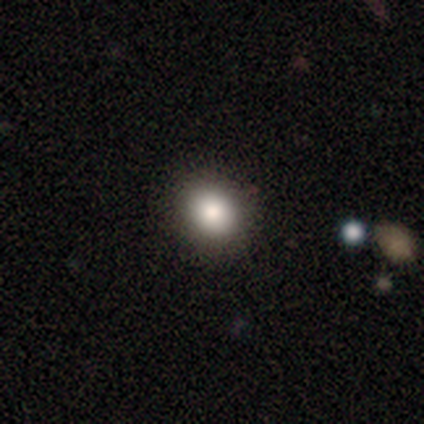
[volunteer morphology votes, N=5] smooth 80%, featured or disk 20%, star or artifact 0%. Down the decision tree: how rounded — round (50%, tied with in between); merging — none (100%).